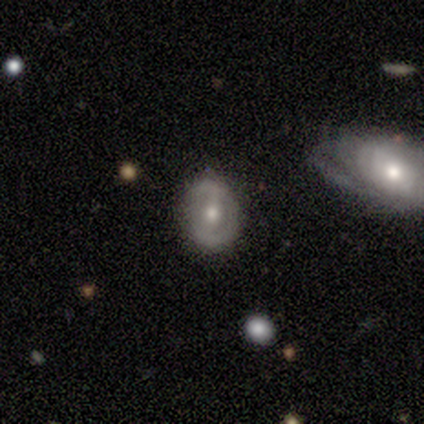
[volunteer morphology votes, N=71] Smooth or featured: featured or disk — 75% (smooth — 18%)
Edge-on disk: no — 98% (yes — 2%)
Bar: weak — 37% (strong — 35%)
Spiral arms: no — 56% (yes — 44%)
Bulge size: moderate — 62% (small — 33%)
Merging: none — 79% (minor disturbance — 18%)